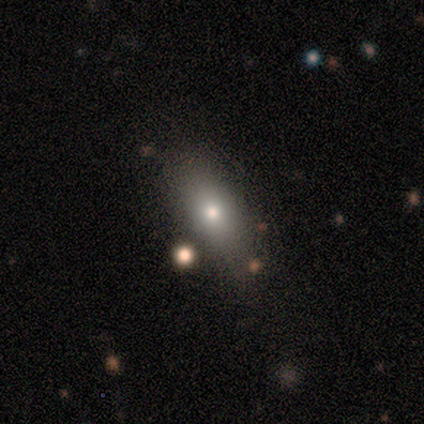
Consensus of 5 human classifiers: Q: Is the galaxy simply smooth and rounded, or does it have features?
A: smooth — 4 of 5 (80%).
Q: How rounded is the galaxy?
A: in between — 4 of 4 (100%).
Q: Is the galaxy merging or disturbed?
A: none — 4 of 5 (80%).